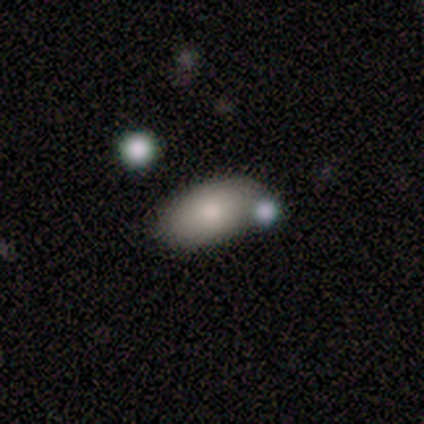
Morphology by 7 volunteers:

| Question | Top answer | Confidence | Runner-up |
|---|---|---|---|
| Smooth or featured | smooth | 57% | star or artifact (29%) |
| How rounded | in between | 100% | — |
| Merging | merger | 60% | none (20%) |